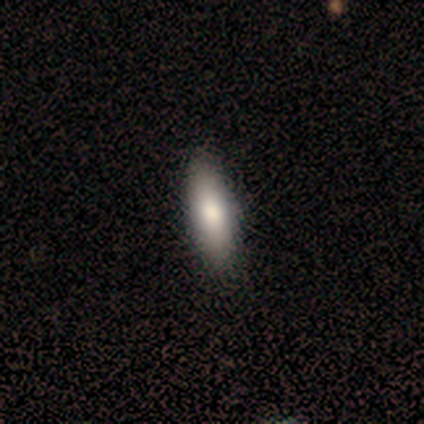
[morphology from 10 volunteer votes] Smooth or featured: smooth — 80% (featured or disk — 10%)
How rounded: in between — 50% (tied with cigar-shaped — 50%)
Merging: none — 89% (minor disturbance — 11%)